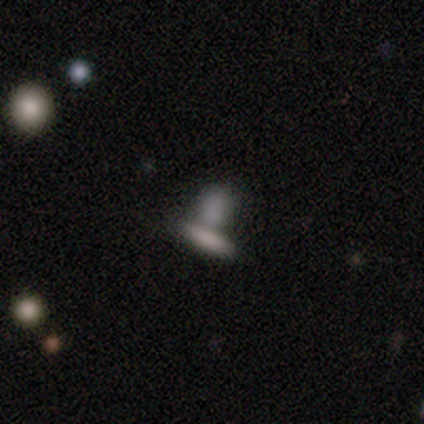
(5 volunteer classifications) smooth_or_featured: smooth (p=1.00)
how_rounded: in between (p=0.80) [alt: cigar-shaped p=0.20]
merging: merger (p=0.60) [alt: none p=0.40]